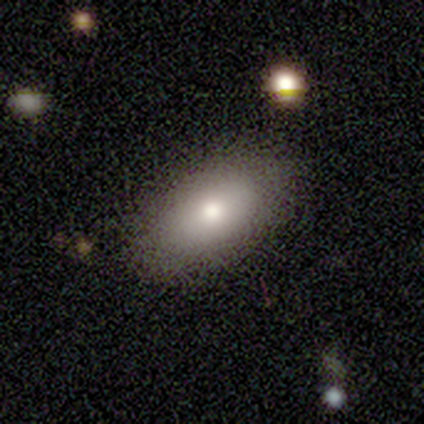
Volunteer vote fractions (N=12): Q: Smooth or featured?
A: smooth (83%); runner-up: featured or disk (8%)
Q: How rounded?
A: in between (100%)
Q: Merging?
A: none (64%); runner-up: minor disturbance (27%)